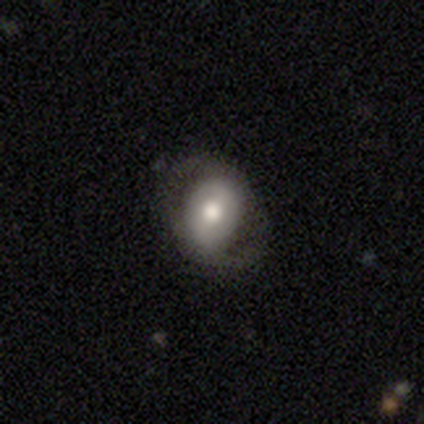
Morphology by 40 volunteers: smooth_or_featured: featured or disk (p=0.68) [alt: smooth p=0.30]
disk_edge_on: no (p=1.00)
bar: weak (p=0.37) [alt: strong p=0.33]
has_spiral_arms: yes (p=0.59) [alt: no p=0.41]
spiral_winding: medium (p=0.44) [alt: loose p=0.31]
spiral_arm_count: 2 (p=1.00)
bulge_size: moderate (p=0.67) [alt: large p=0.19]
merging: none (p=0.74) [alt: minor disturbance p=0.15]